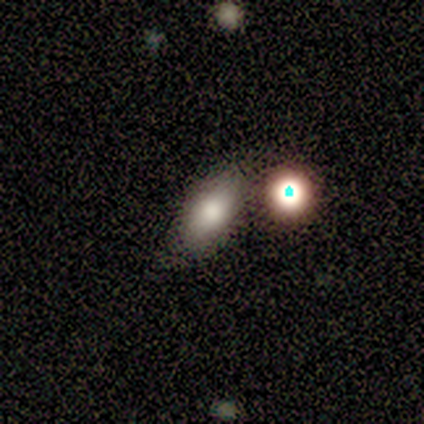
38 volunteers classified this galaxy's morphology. Smooth or featured?
  - smooth: 71% *
  - star or artifact: 16%
  - featured or disk: 13%
How rounded?
  - in between: 81% *
  - cigar-shaped: 11%
  - round: 7%
Merging?
  - none: 72% *
  - merger: 19%
  - minor disturbance: 6%
  - major disturbance: 3%